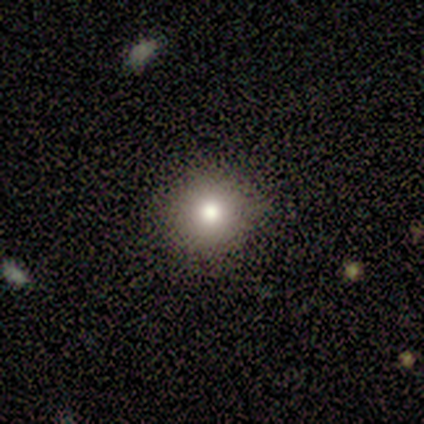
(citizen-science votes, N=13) smooth 100%, featured or disk 0%, star or artifact 0%. Down the decision tree: how rounded — round (92%); merging — none (85%).